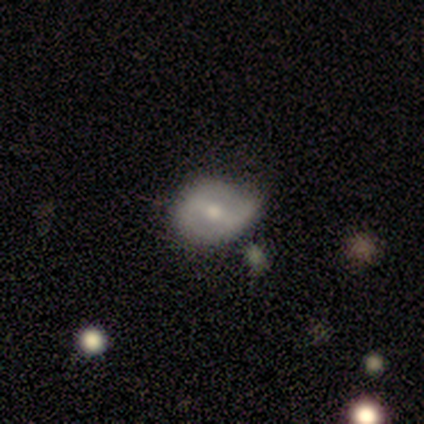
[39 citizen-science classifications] Smooth or featured? featured or disk (67%)
Edge-on disk? no (100%)
Bar? weak (50%)
Spiral arms? no (54%)
Bulge size? small (54%)
Merging? none (50%)